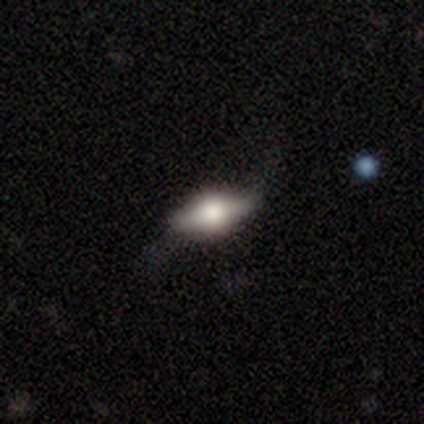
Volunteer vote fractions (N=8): Overall: smooth (50%; featured or disk 38%). How rounded: in between (100%). Merging: none (71%).